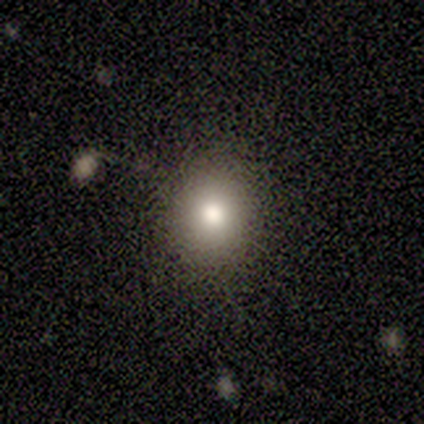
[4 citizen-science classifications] Smooth or featured: smooth — 75% (featured or disk — 25%)
How rounded: round — 67% (in between — 33%)
Merging: none — 100%